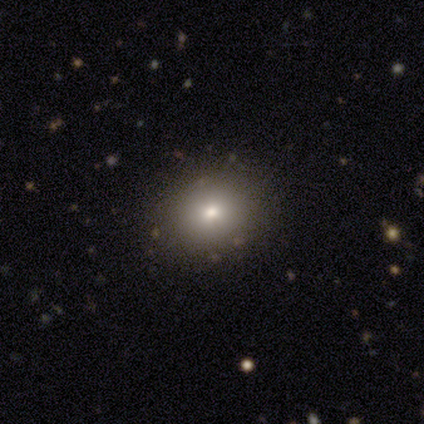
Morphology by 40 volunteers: Smooth or featured?
  - smooth: 65% *
  - star or artifact: 20%
  - featured or disk: 15%
How rounded?
  - round: 50% * (tied)
  - in between: 50% * (tied)
  - cigar-shaped: 0%
Merging?
  - none: 88% *
  - minor disturbance: 6%
  - major disturbance: 3%
  - merger: 3%